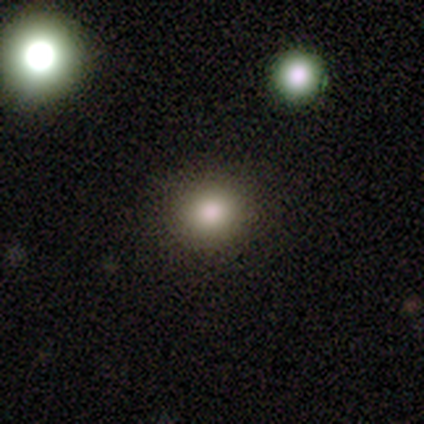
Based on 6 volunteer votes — Morphology: type=smooth (67%); roundness=round (100%); merging=none (100%).